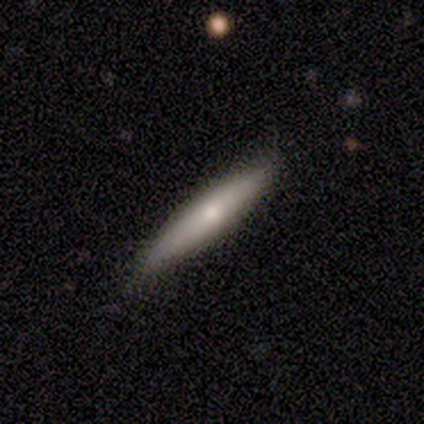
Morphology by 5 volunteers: Smooth or featured?
  - smooth: 80% *
  - featured or disk: 20%
  - star or artifact: 0%
How rounded?
  - in between: 50% * (tied)
  - cigar-shaped: 50% * (tied)
  - round: 0%
Merging?
  - none: 80% *
  - major disturbance: 20%
  - minor disturbance: 0%
  - merger: 0%